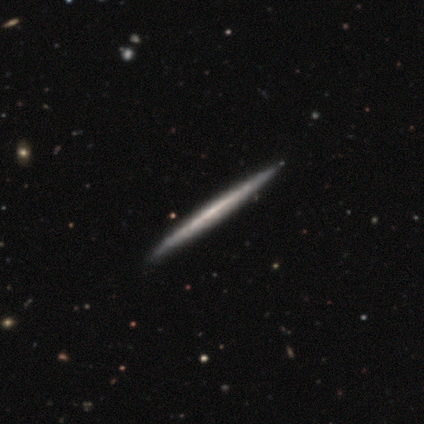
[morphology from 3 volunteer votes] Overall: smooth (33%, tied with featured or disk and star or artifact). How rounded: cigar-shaped (100%). Merging: none (100%).